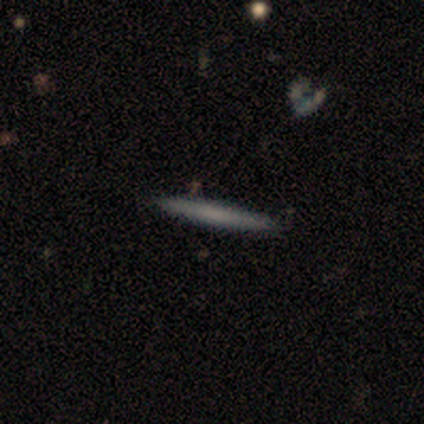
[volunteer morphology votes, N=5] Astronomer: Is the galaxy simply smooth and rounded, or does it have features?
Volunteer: featured or disk — 80%.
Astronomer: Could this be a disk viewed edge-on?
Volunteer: yes — 100%.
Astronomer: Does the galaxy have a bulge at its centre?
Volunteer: none — 50%, tied with rounded at 50%.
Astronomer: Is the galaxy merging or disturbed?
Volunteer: none — 80%.